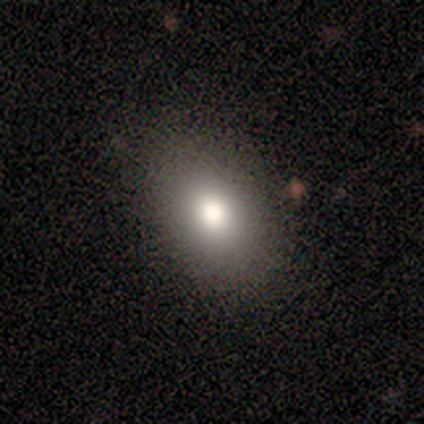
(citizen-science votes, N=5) This is clearly a smooth galaxy (100%). How rounded: clearly in between (80%). Merging: clearly none (100%).